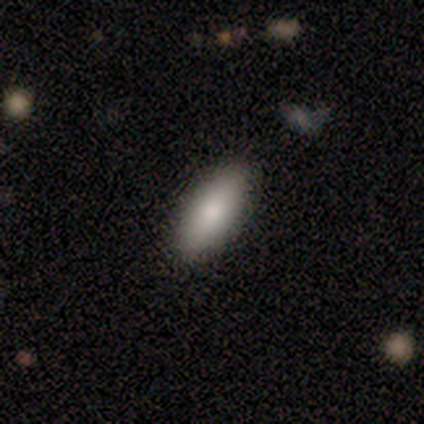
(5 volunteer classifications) Smooth or featured?
  - smooth: 80% *
  - featured or disk: 20%
  - star or artifact: 0%
How rounded?
  - in between: 75% *
  - cigar-shaped: 25%
  - round: 0%
Merging?
  - none: 80% *
  - minor disturbance: 20%
  - major disturbance: 0%
  - merger: 0%